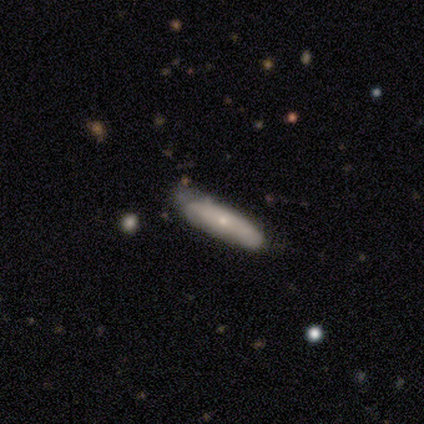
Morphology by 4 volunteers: Smooth or featured? 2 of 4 (50%, tied with featured or disk) said smooth. How rounded? 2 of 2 (100%) said cigar-shaped. Merging? 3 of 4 (75%) said none.